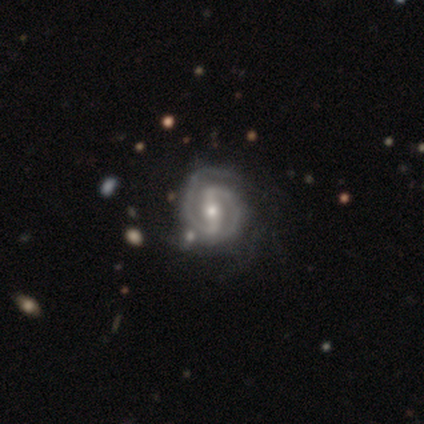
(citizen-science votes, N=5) Smooth or featured? 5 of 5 (100%) said featured or disk. Edge-on disk? 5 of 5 (100%) said no. Bar? 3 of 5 (60%) said weak. Spiral arms? 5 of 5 (100%) said yes. Spiral winding? 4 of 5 (80%) said medium. Spiral arm count? 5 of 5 (100%) said 2. Bulge size? 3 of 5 (60%) said moderate. Merging? 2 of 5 (40%, tied with minor disturbance) said none.